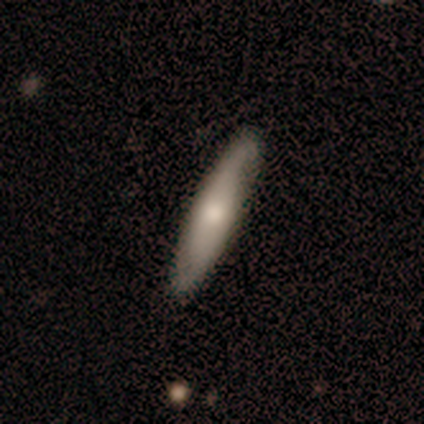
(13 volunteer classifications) smooth_or_featured: smooth (p=0.69) [alt: featured or disk p=0.23]
how_rounded: cigar-shaped (p=0.89) [alt: in between p=0.11]
merging: none (p=0.92) [alt: minor disturbance p=0.08]